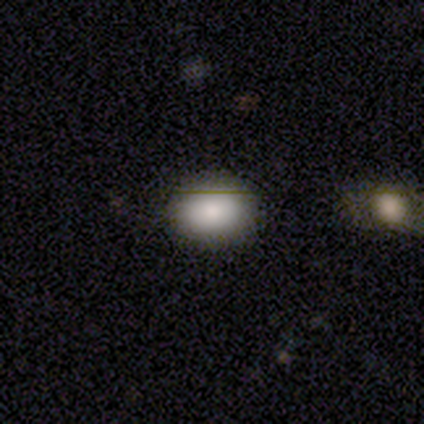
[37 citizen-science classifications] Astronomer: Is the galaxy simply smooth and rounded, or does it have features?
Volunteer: smooth — 89%.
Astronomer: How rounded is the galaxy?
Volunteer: in between — 67%.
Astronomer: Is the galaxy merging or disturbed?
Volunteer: none — 94%.